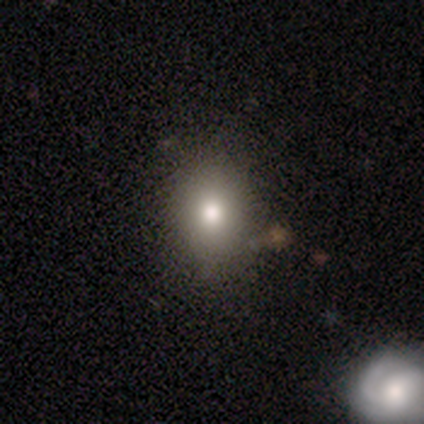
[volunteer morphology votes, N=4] Volunteers were most divided on "how rounded": in between: 67%, round: 33%, cigar-shaped: 0%. More confident: merging — none (100%); smooth or featured — smooth (75%).